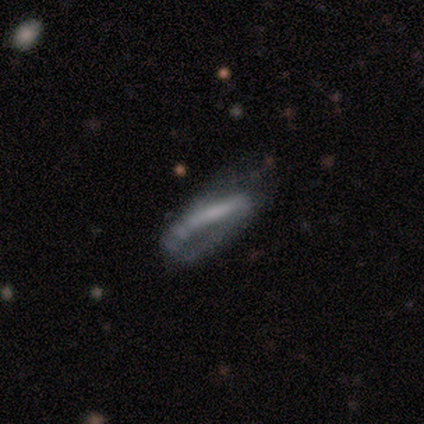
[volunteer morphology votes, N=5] Smooth or featured?
  - featured or disk: 60% *
  - smooth: 40%
  - star or artifact: 0%
Edge-on disk?
  - no: 67% *
  - yes: 33%
Bar?
  - strong: 50% * (tied)
  - no: 50% * (tied)
  - weak: 0%
Spiral arms?
  - yes: 100% *
  - no: 0%
Spiral winding?
  - tight: 50% * (tied)
  - loose: 50% * (tied)
  - medium: 0%
Spiral arm count?
  - 2: 100% *
  - 1: 0%
  - 3: 0%
  - 4: 0%
  - more than 4: 0%
  - can't tell: 0%
Bulge size?
  - moderate: 50% * (tied)
  - none: 50% * (tied)
  - dominant: 0%
  - large: 0%
  - small: 0%
Merging?
  - minor disturbance: 80% *
  - none: 20%
  - major disturbance: 0%
  - merger: 0%